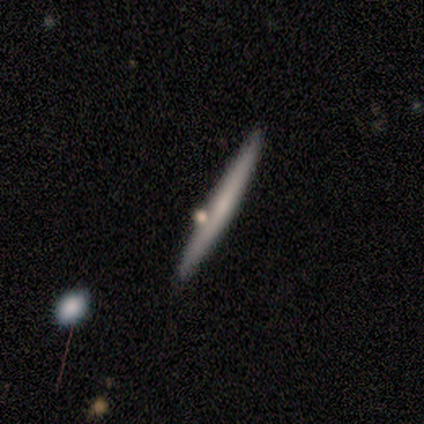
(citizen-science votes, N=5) Smooth or featured? smooth (80%)
How rounded? cigar-shaped (100%)
Merging? none (100%)